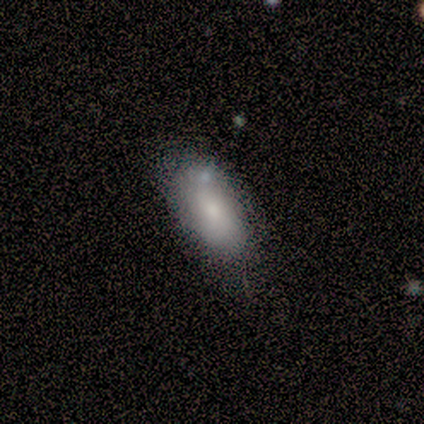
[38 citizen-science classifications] smooth_or_featured: smooth (p=0.76) [alt: featured or disk p=0.18]
how_rounded: in between (p=0.97) [alt: round p=0.03]
merging: none (p=0.69) [alt: minor disturbance p=0.14]